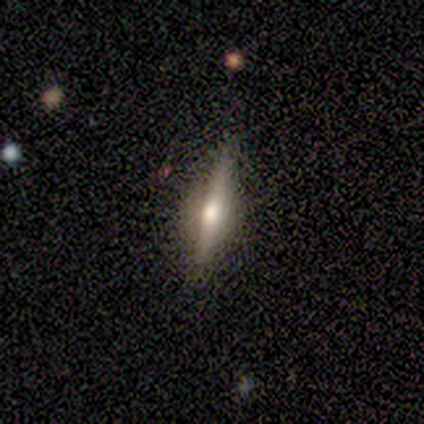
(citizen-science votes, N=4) smooth-or-featured: star or artifact: 50% | smooth: 25% | featured or disk: 25%